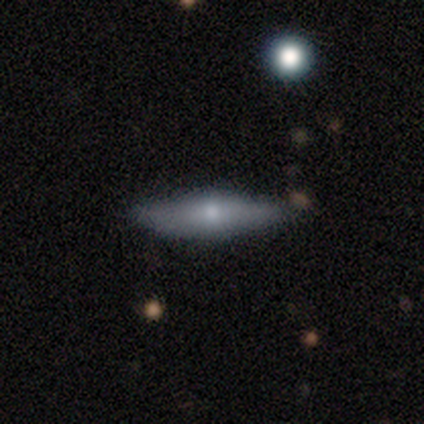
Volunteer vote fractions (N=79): Q: Smooth or featured?
A: smooth (53%); runner-up: featured or disk (42%)
Q: How rounded?
A: cigar-shaped (76%); runner-up: in between (19%)
Q: Merging?
A: none (47%); runner-up: minor disturbance (8%)